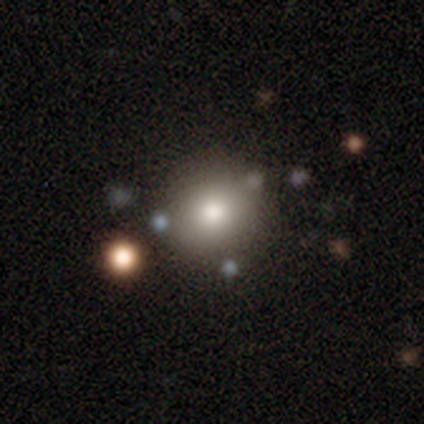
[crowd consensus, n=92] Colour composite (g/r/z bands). It shows a smooth galaxy with no disk features (78%) that is round (99%). Merging: none (84%).